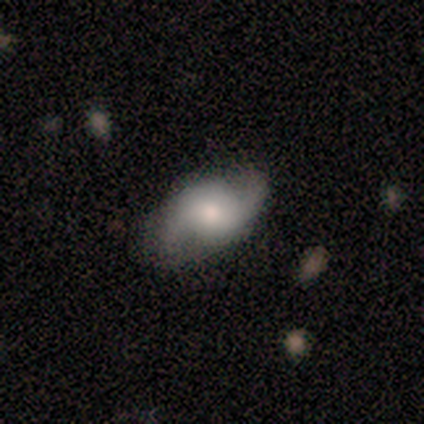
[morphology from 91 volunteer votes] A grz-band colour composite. It shows a featured or disk galaxy (79%) with no bar (52%), 2 (94%) loose (55%) spiral arms (100%) and a moderate central bulge (49%). Merging: none (75%).